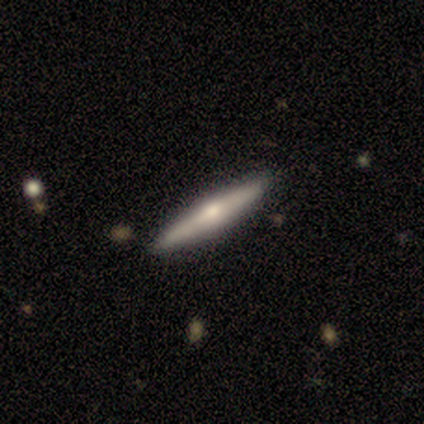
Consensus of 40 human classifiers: A featured or disk galaxy (52%) viewed edge-on (95%) with a rounded central bulge (95%).

Vote fractions:
- Smooth or featured? featured or disk: 52% / smooth: 45% / star or artifact: 2%
- Edge-on disk? yes: 95% / no: 5%
- Edge-on bulge? rounded: 95% / none: 5% / boxy: 0%
- Merging? none: 97% / minor disturbance: 3% / major disturbance: 0% / merger: 0%